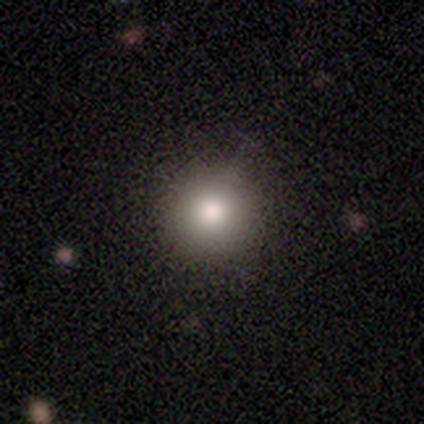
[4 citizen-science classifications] Smooth or featured?
  - smooth: 100% *
  - featured or disk: 0%
  - star or artifact: 0%
How rounded?
  - round: 75% *
  - in between: 25%
  - cigar-shaped: 0%
Merging?
  - none: 100% *
  - minor disturbance: 0%
  - major disturbance: 0%
  - merger: 0%